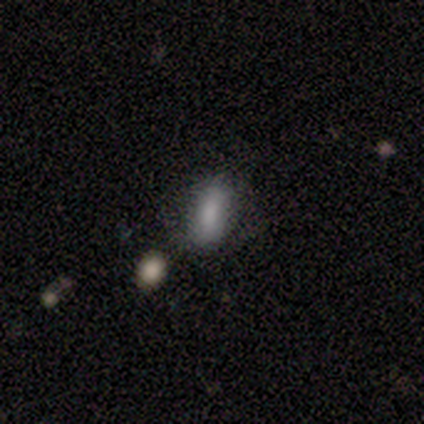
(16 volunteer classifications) Smooth or featured: smooth — 94% (star or artifact — 6%)
How rounded: in between — 73% (cigar-shaped — 20%)
Merging: none — 60% (minor disturbance — 20%)